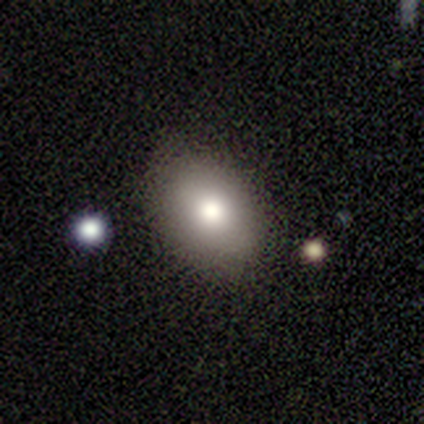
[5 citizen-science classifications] Smooth or featured: smooth — 80% (featured or disk — 20%)
How rounded: in between — 100%
Merging: none — 60% (minor disturbance — 40%)